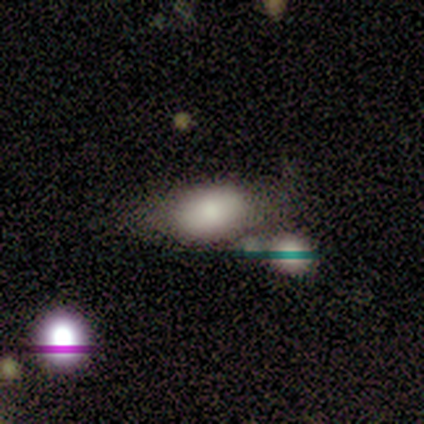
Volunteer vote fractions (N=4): Morphology: type=smooth (50%, tied with featured or disk); roundness=round (50%, tied with in between); merging=none (50%, tied with merger).